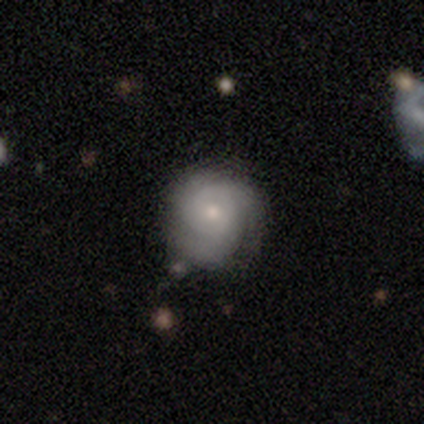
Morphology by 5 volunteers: A smooth galaxy with no disk features (80%) that is round (100%). Merging: none (60%).